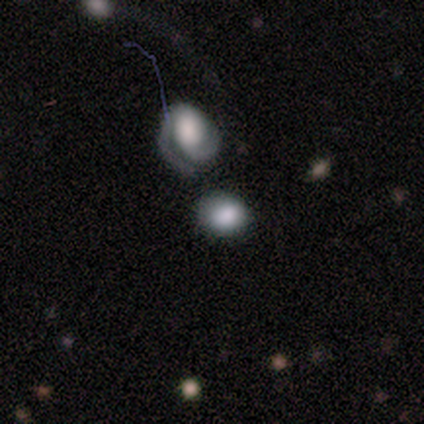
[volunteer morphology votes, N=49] Smooth or featured? smooth (73%)
How rounded? in between (53%)
Merging? none (45%)